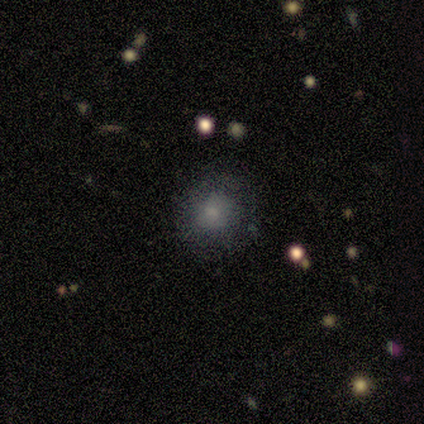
smooth 80%, star or artifact 20%, featured or disk 0%. Down the decision tree: how rounded — round (100%); merging — none (50%, tied with minor disturbance).